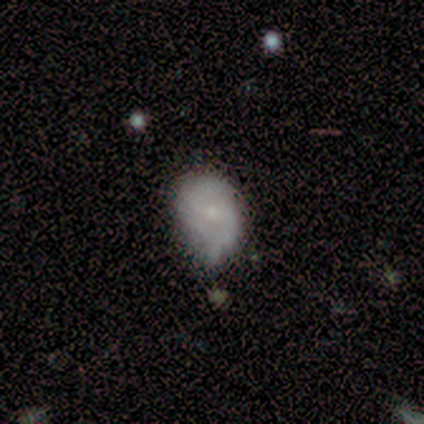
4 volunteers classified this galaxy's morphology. A featured or disk galaxy (75%) with a weak bar (67%), 2 (67%) tight (33%, tied with medium and loose) spiral arms (100%) and a small central bulge (100%). Merging: none (50%, tied with minor disturbance).